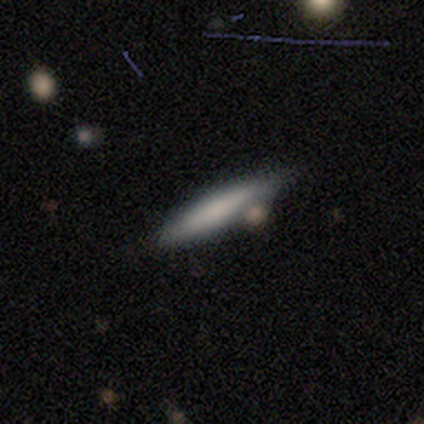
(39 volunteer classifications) Smooth or featured? 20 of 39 (51%) said featured or disk. Edge-on disk? 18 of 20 (90%) said yes. Edge-on bulge? 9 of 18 (50%) said none. Merging? 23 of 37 (62%) said none.